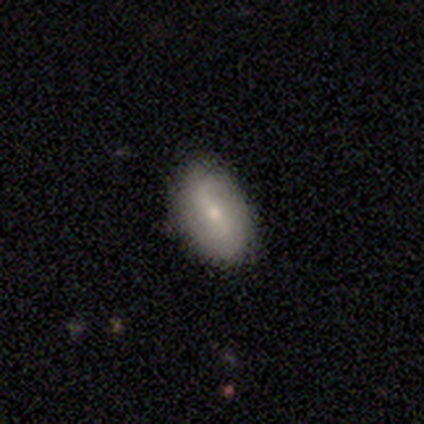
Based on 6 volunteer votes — Overall: smooth (50%, tied with featured or disk). How rounded: in between (67%; round 33%). Merging: none (83%).